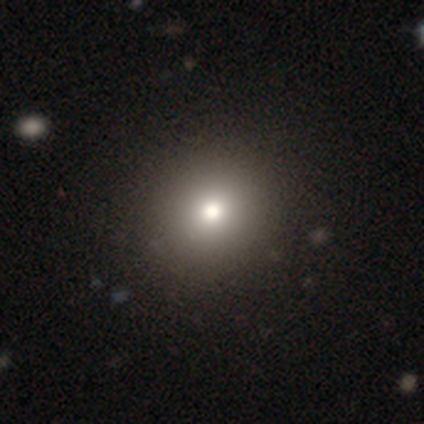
Smooth or featured?
  - smooth: 50% * (tied)
  - star or artifact: 50% * (tied)
  - featured or disk: 0%
How rounded?
  - round: 100% *
  - in between: 0%
  - cigar-shaped: 0%
Merging?
  - none: 100% *
  - minor disturbance: 0%
  - major disturbance: 0%
  - merger: 0%